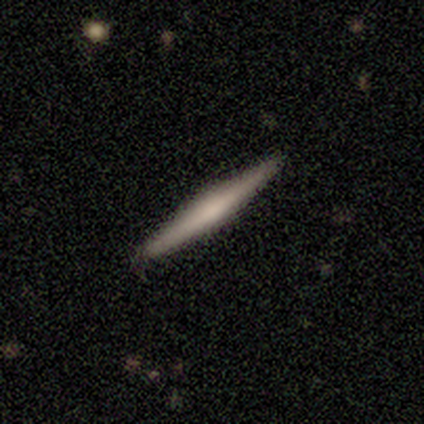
This is possibly a featured or disk galaxy (56%). It is clearly viewed edge-on (100%). Edge-on bulge: marginally rounded (41%). Merging: clearly none (97%).